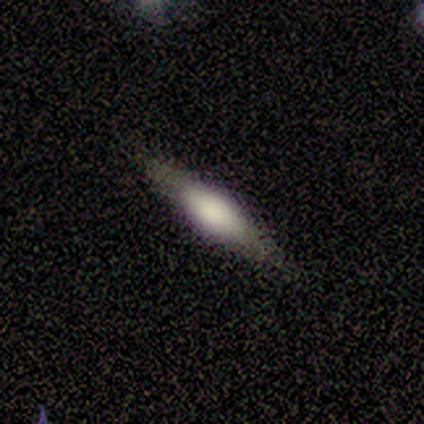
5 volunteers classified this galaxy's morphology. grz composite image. It shows a smooth galaxy with no disk features (60%) that is cigar-shaped (100%). Merging: none (80%).